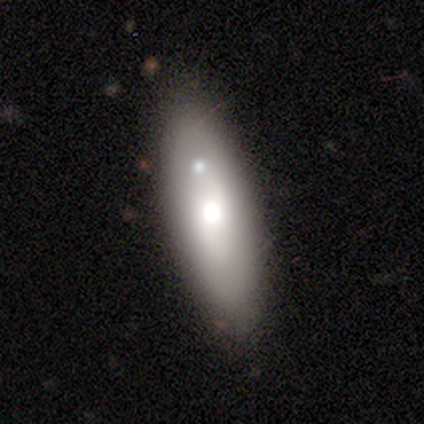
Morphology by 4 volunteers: type=smooth (75%); roundness=cigar-shaped (67%); merging=none (75%).